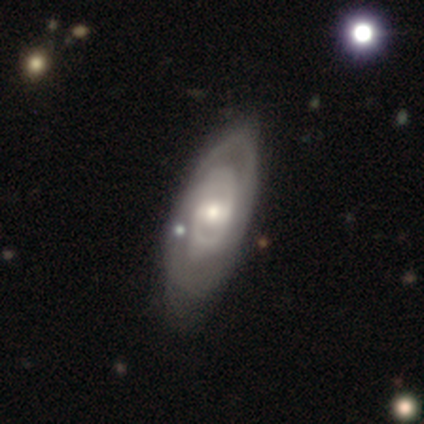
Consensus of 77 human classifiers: A featured or disk galaxy (81%) with a weak bar (45%), 2 (64%) tight (73%) spiral arms (82%) and a moderate central bulge (55%). Merging: none (32%).